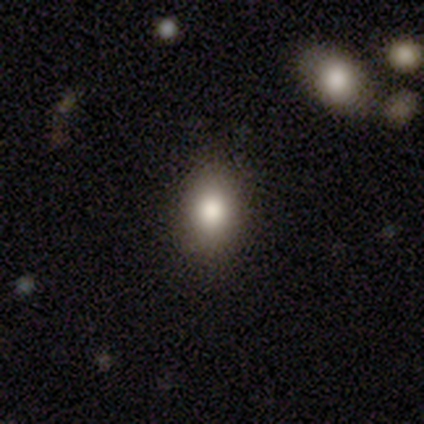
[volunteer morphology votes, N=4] This appears to be a smooth galaxy with no disk features (100%) that is in between round and cigar-shaped (100%). Merging: none (100%).